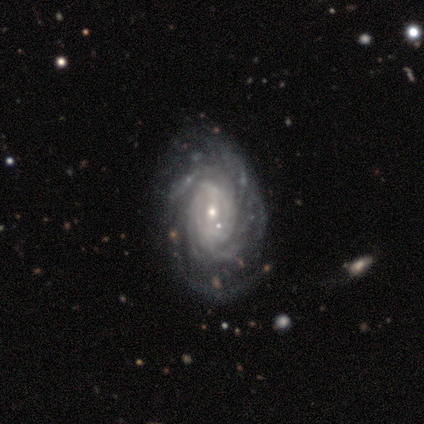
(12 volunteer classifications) Morphology: type=featured or disk (75%); edge-on=no (100%); bar=weak (56%); spiral arms=yes (89%); winding=tight (62%); arm count=can't tell (38%); bulge=small (56%); merging=none (70%).